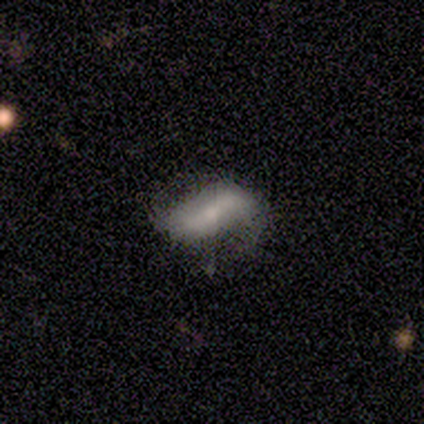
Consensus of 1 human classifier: smooth_or_featured: featured or disk (p=1.00)
disk_edge_on: no (p=1.00)
bar: strong (p=1.00)
has_spiral_arms: no (p=1.00)
bulge_size: none (p=1.00)
merging: major disturbance (p=1.00)